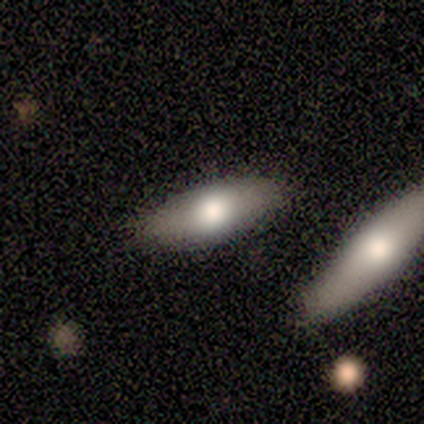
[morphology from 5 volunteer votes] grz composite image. It shows a smooth galaxy with no disk features (100%) that is in between round and cigar-shaped (80%). Merging: none (80%).